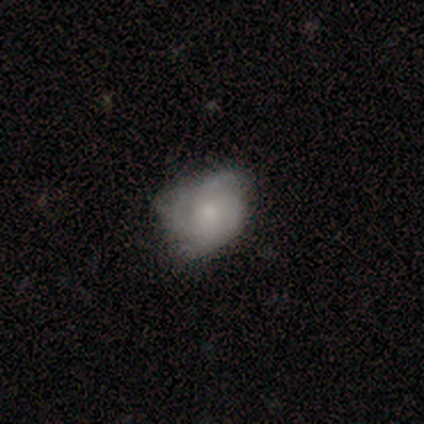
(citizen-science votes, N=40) This is likely a featured or disk galaxy (70%). It is clearly not viewed edge-on (100%). Bar: likely no (75%). Spiral arm pattern: clearly yes (86%). Spiral arm count: marginally can't tell (29%). Spiral winding: marginally medium (42%). Central bulge: possibly small (57%). Merging: possibly none (59%).